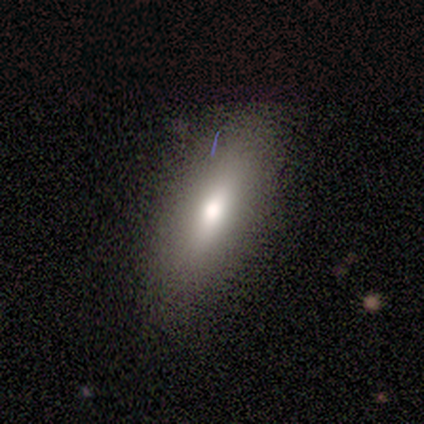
smooth_or_featured: smooth (p=0.64) [alt: featured or disk p=0.36]
how_rounded: in between (p=0.71) [alt: cigar-shaped p=0.29]
merging: none (p=0.82) [alt: minor disturbance p=0.18]